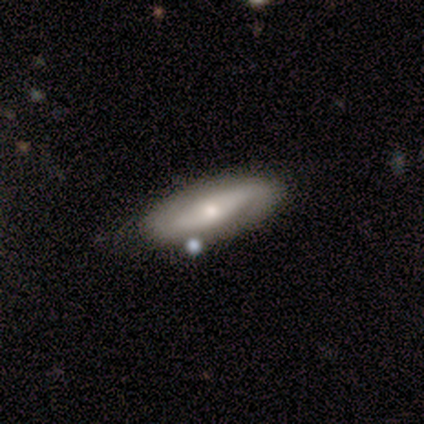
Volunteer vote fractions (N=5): A featured or disk galaxy (80%) with a weak bar (67%), 2 (50%, tied with can't tell) tight (50%, tied with medium) spiral arms (67%) and a moderate central bulge (67%).

Vote fractions:
- Smooth or featured? featured or disk: 80% / star or artifact: 20% / smooth: 0%
- Edge-on disk? no: 75% / yes: 25%
- Bar? weak: 67% / no: 33% / strong: 0%
- Spiral arms? yes: 67% / no: 33%
- Spiral winding? tight: 50% (tied) / medium: 50% (tied) / loose: 0%
- Spiral arm count? 2: 50% (tied) / can't tell: 50% (tied) / 1: 0% / 3: 0% / 4: 0% / more than 4: 0%
- Bulge size? moderate: 67% / small: 33% / dominant: 0% / large: 0% / none: 0%
- Merging? none: 75% / minor disturbance: 25% / major disturbance: 0% / merger: 0%